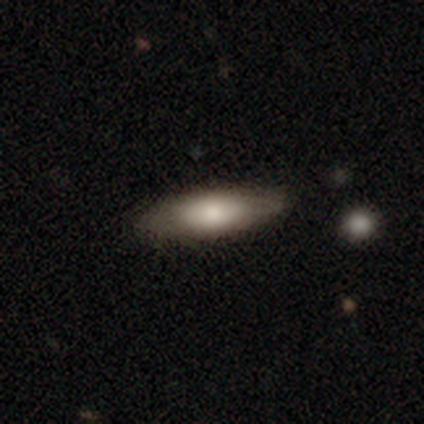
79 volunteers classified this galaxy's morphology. Volunteers were most divided on "how rounded": in between: 61%, cigar-shaped: 39%, round: 0%. Remaining: smooth or featured — smooth (75%); merging — none (41%).